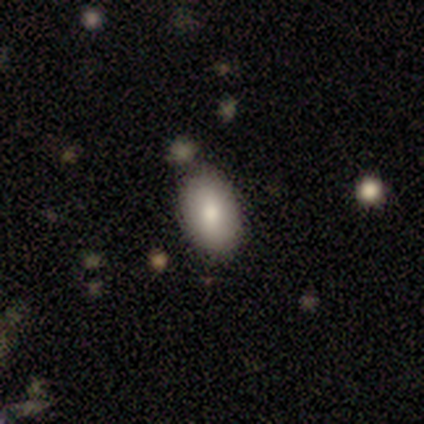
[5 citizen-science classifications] Overall: smooth (80%). How rounded: in between (100%). Merging: none (80%).